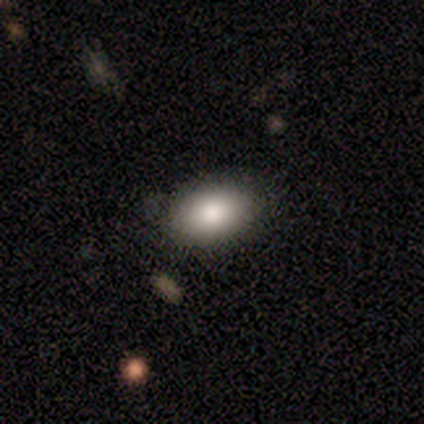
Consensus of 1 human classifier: Smooth or featured? 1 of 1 (100%) said smooth. How rounded? 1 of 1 (100%) said in between. Merging? 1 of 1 (100%) said major disturbance.